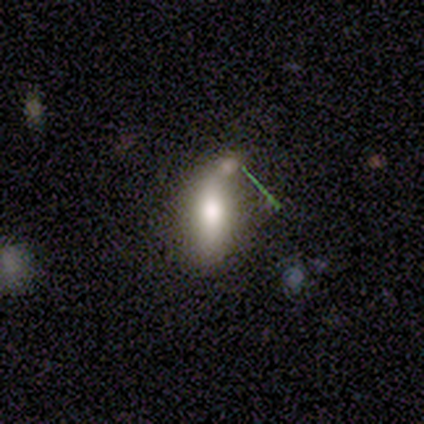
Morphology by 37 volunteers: Smooth or featured?
  - smooth: 68% *
  - featured or disk: 27%
  - star or artifact: 5%
How rounded?
  - in between: 76% *
  - cigar-shaped: 16%
  - round: 8%
Merging?
  - none: 49% *
  - merger: 29%
  - minor disturbance: 11%
  - major disturbance: 11%